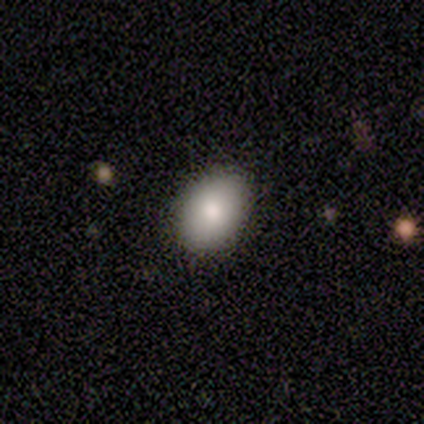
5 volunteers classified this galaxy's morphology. smooth 80%, featured or disk 20%, star or artifact 0%. Down the decision tree: how rounded — round (50%, tied with in between); merging — none (100%).